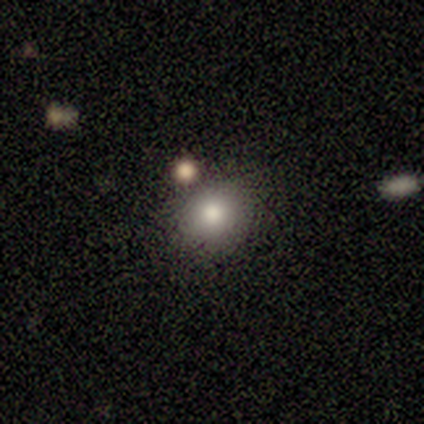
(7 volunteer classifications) smooth_or_featured: smooth (p=0.86) [alt: star or artifact p=0.14]
how_rounded: round (p=0.83) [alt: in between p=0.17]
merging: none (p=1.00)